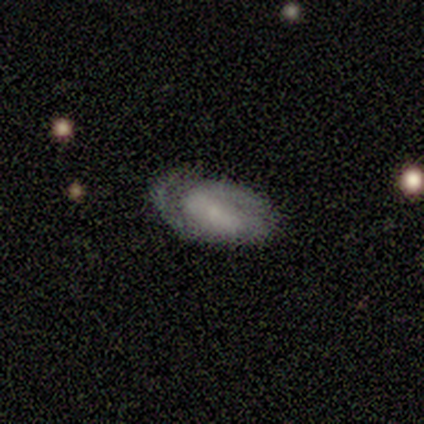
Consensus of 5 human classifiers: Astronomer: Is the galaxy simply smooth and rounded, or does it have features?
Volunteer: smooth — 40%, tied with featured or disk at 40%.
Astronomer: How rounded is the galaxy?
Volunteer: in between — 100%.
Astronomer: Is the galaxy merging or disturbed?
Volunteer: minor disturbance — 50%.